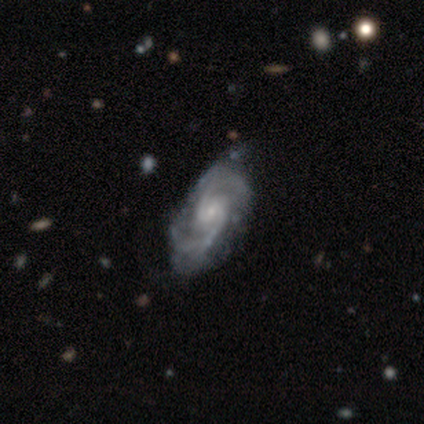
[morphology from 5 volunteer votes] Volunteers were most divided on "bar": no: 60%, weak: 40%, strong: 0%. More confident: smooth or featured — featured or disk (100%); edge-on disk — no (100%); spiral arms — yes (100%); spiral arm count — 2 (100%); spiral winding — medium (80%); bulge size — small (60%); merging — none (60%).